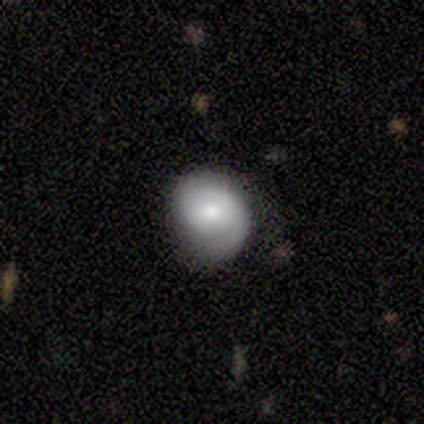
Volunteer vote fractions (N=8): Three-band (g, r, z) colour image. It shows a smooth galaxy with no disk features (50%, tied with featured or disk) that is round (50%, tied with in between). Merging: none (75%).